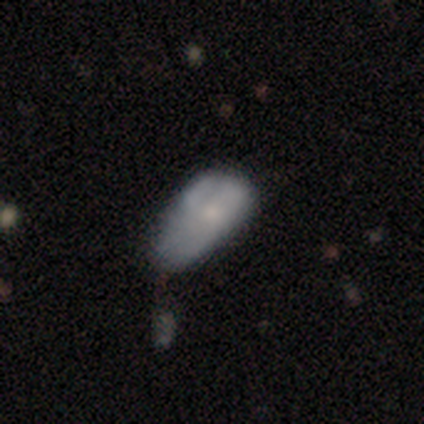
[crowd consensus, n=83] smooth-or-featured: smooth: 63% | featured or disk: 35% | star or artifact: 2%
  how-rounded: in between: 81% | round: 10% | cigar-shaped: 10%
  merging: minor disturbance: 48% | major disturbance: 27% | none: 16% | merger: 9%